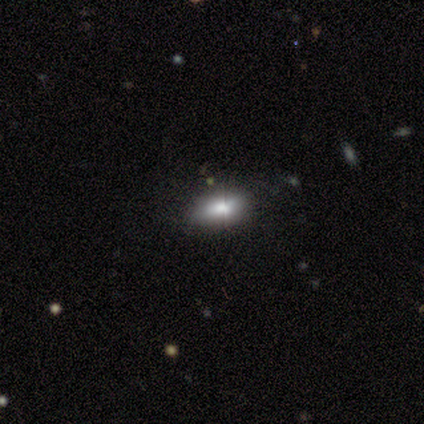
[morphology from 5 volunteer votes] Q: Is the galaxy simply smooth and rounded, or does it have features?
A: smooth — 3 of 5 (60%).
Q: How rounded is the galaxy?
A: in between — 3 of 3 (100%).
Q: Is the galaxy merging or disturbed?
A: none — 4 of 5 (80%).